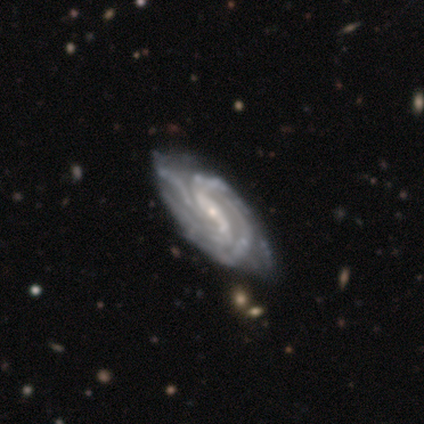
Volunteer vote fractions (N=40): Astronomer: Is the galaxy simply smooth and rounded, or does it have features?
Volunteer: featured or disk — 98%.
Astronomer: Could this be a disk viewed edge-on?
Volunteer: no — 100%.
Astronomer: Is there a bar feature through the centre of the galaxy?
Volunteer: weak — 41% (runner-up: strong, 38%).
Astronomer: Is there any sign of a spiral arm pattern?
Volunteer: yes — 97%.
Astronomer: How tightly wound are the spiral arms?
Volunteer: medium — 50% (runner-up: tight, 45%).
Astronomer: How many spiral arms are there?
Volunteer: can't tell — 32% (runner-up: 4, 29%).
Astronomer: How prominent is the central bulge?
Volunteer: small — 77%.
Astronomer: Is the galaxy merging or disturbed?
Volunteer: none — 36%.